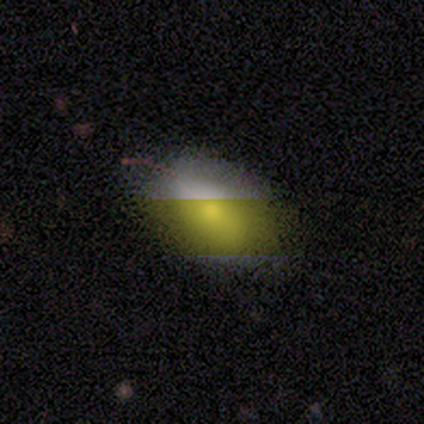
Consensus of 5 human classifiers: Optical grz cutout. It shows a smooth galaxy with no disk features (100%) that is in between round and cigar-shaped (100%). Merging: none (100%).